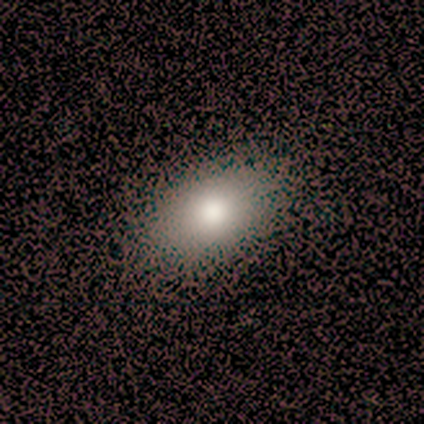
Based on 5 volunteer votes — Smooth or featured? 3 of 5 (60%) said smooth. How rounded? 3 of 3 (100%) said in between. Merging? 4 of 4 (100%) said none.